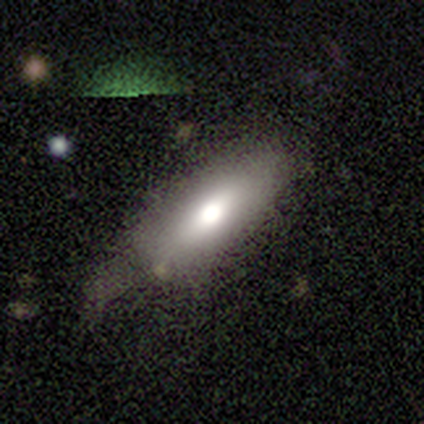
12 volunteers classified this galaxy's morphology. Smooth or featured?
  - smooth: 83% *
  - featured or disk: 8%
  - star or artifact: 8%
How rounded?
  - in between: 80% *
  - cigar-shaped: 20%
  - round: 0%
Merging?
  - none: 45% *
  - major disturbance: 36%
  - minor disturbance: 18%
  - merger: 0%